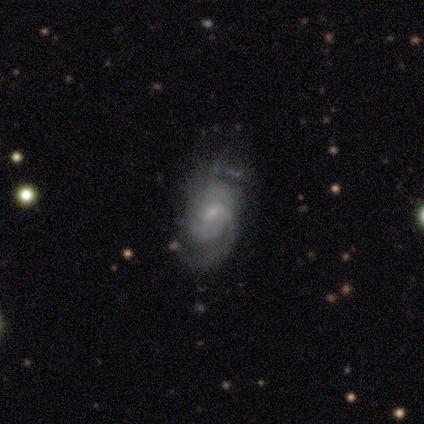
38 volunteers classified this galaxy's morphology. Volunteers were most divided on "spiral arm count" (2-way tie): 2: 33%, can't tell: 33%, 3: 24%, 1: 5%, 4: 5%, more than 4: 0%. Remaining: edge-on disk — no (96%); spiral arms — yes (88%); smooth or featured — featured or disk (66%); bar — weak (54%); bulge size — small (54%); merging — none (50%); spiral winding — medium (38%).